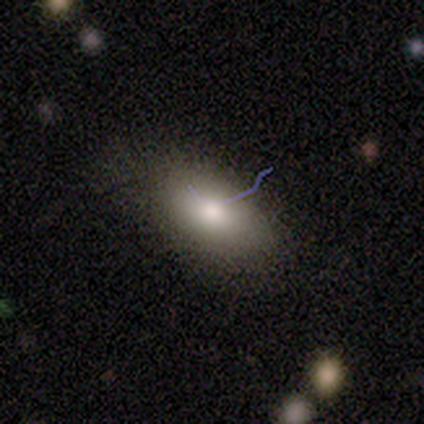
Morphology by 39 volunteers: smooth_or_featured: smooth (p=0.79) [alt: featured or disk p=0.21]
how_rounded: in between (p=0.90) [alt: round p=0.06]
merging: none (p=0.82) [alt: minor disturbance p=0.15]